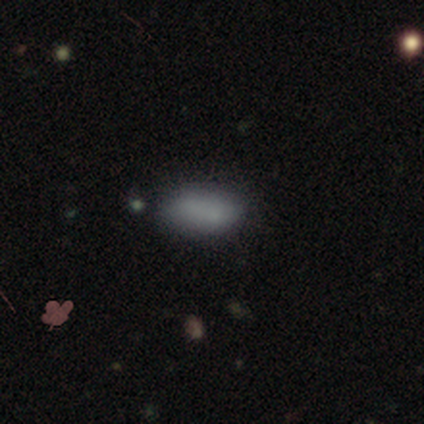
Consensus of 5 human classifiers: Smooth or featured: smooth — 80% (star or artifact — 20%)
How rounded: in between — 100%
Merging: none — 50% (minor disturbance — 25%)